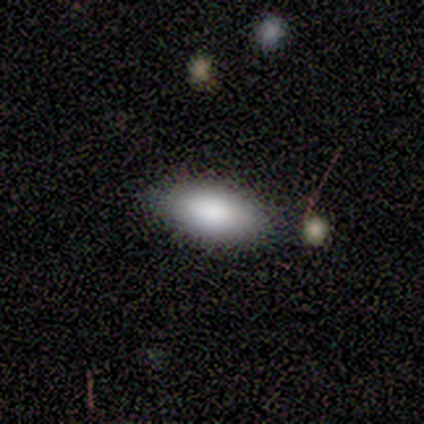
Volunteers were most divided on "merging": none: 80%, minor disturbance: 20%, major disturbance: 0%, merger: 0%. More confident: smooth or featured — smooth (100%); how rounded — in between (100%).